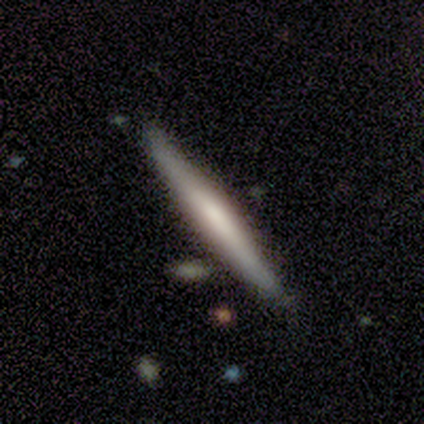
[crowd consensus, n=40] This is possibly a smooth galaxy (57%). How rounded: clearly cigar-shaped (96%). Merging: clearly none (85%).